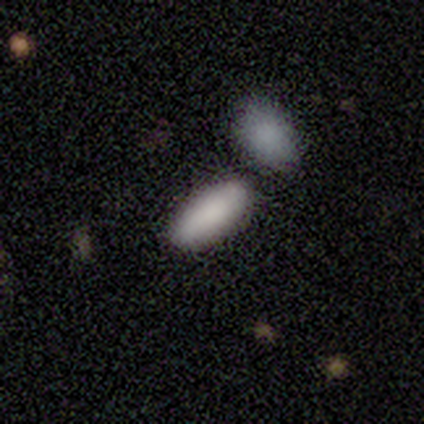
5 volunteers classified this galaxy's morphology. This is clearly a smooth galaxy (100%). How rounded: clearly in between (80%). Merging: likely none (60%).